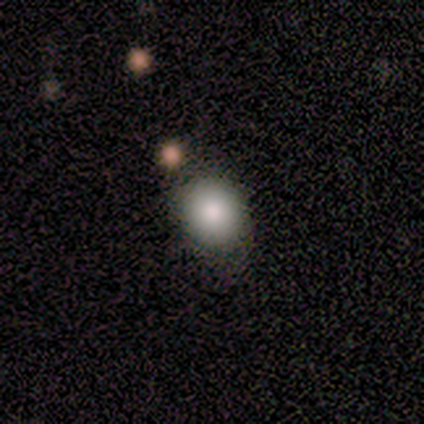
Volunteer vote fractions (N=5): Smooth or featured? smooth (100%)
How rounded? round (80%)
Merging? none (80%)